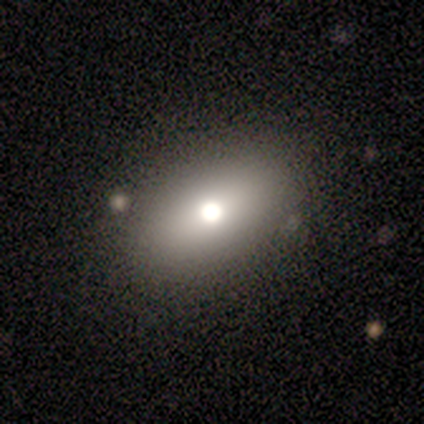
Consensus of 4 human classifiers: Volunteers were most divided on "how rounded": in between: 67%, round: 33%, cigar-shaped: 0%. More confident: merging — none (100%); smooth or featured — smooth (75%).